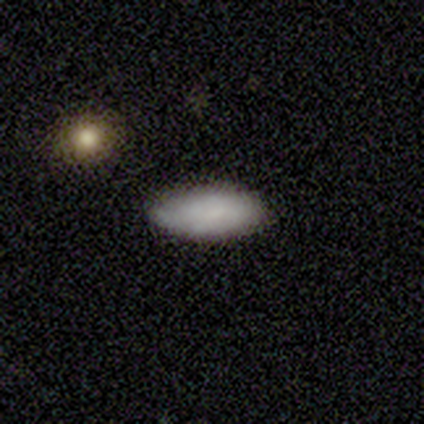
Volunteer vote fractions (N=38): This appears to be a smooth galaxy with no disk features (92%) that is in between round and cigar-shaped (94%). Merging: none (86%).